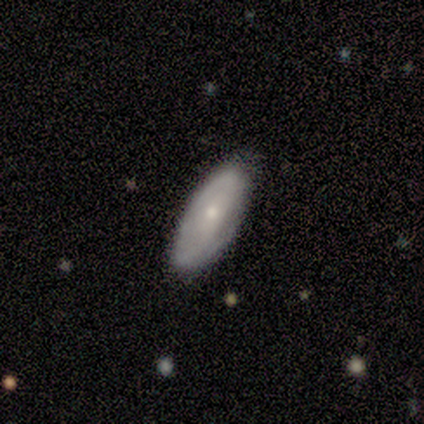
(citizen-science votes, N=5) smooth-or-featured: smooth: 80% | featured or disk: 20% | star or artifact: 0%
  how-rounded: in between: 50% (tied) | cigar-shaped: 50% (tied) | round: 0%
  merging: none: 80% | major disturbance: 20% | minor disturbance: 0% | merger: 0%